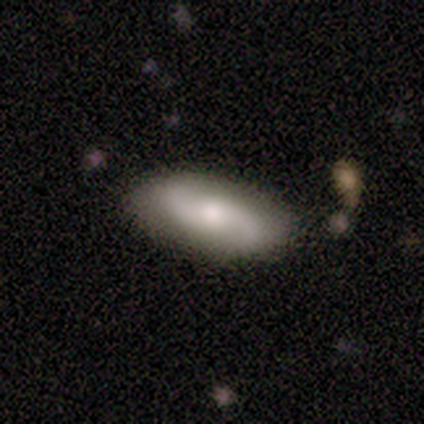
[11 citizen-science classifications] Smooth or featured: featured or disk — 64% (smooth — 36%)
Edge-on disk: no — 100%
Bar: no — 71% (weak — 29%)
Spiral arms: yes — 100%
Spiral winding: medium — 43% (tied with loose — 43%)
Spiral arm count: 2 — 86% (can't tell — 14%)
Bulge size: moderate — 43% (large — 29%)
Merging: none — 82% (minor disturbance — 9%)